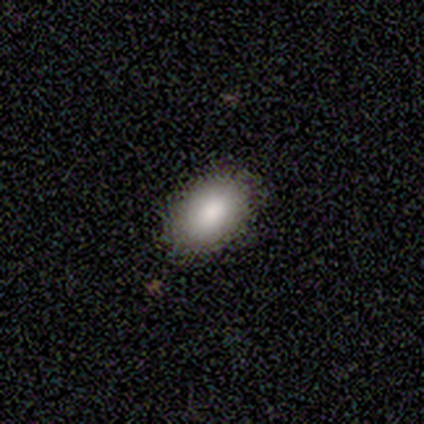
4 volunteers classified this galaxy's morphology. This appears to be a smooth galaxy with no disk features (75%) that is in between round and cigar-shaped (100%). Merging: none (100%).